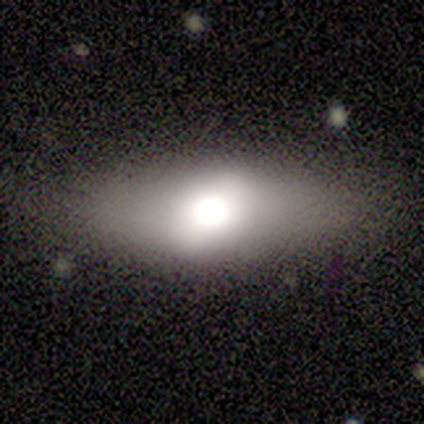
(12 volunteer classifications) Smooth or featured? 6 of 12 (50%) said smooth. How rounded? 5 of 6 (83%) said in between. Merging? 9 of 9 (100%) said none.